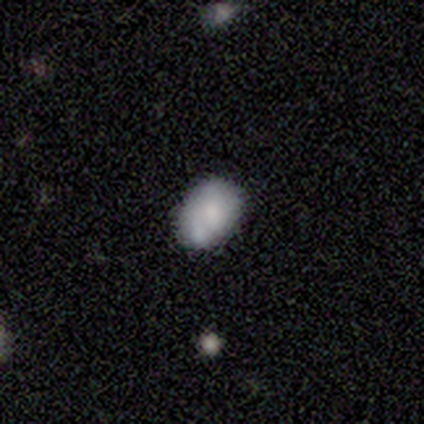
smooth-or-featured: smooth: 60% | featured or disk: 20% | star or artifact: 20%
  how-rounded: round: 67% | in between: 33% | cigar-shaped: 0%
  merging: minor disturbance: 50% | none: 25% | merger: 25% | major disturbance: 0%